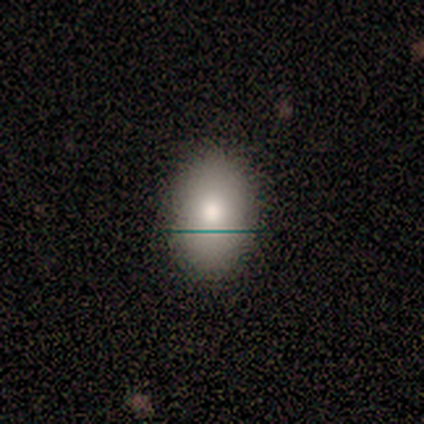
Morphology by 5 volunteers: This is clearly a smooth galaxy (100%). How rounded: clearly in between (80%). Merging: clearly none (100%).